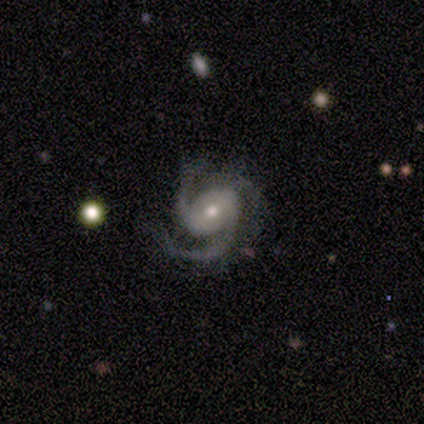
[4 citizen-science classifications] Smooth or featured? 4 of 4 (100%) said featured or disk. Edge-on disk? 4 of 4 (100%) said no. Bar? 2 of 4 (50%) said no. Spiral arms? 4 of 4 (100%) said yes. Spiral winding? 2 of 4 (50%, tied with medium) said tight. Spiral arm count? 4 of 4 (100%) said 3. Bulge size? 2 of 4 (50%, tied with small) said moderate. Merging? 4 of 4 (100%) said none.